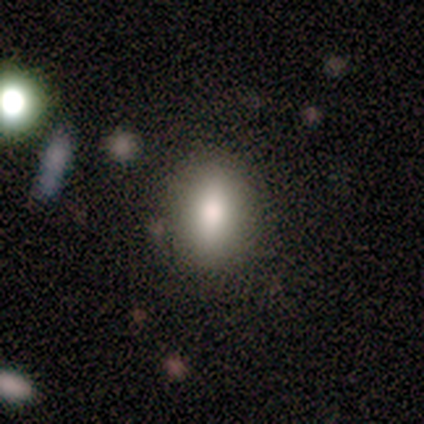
smooth 60%, featured or disk 20%, star or artifact 20%. Down the decision tree: how rounded — in between (67%); merging — none (75%).